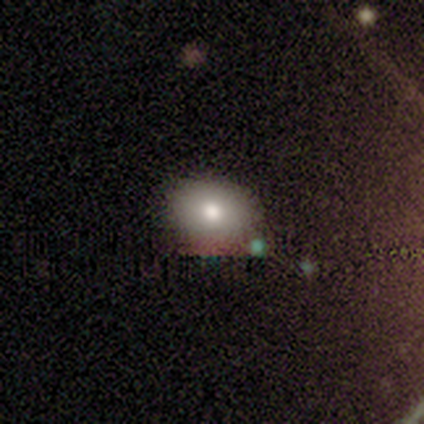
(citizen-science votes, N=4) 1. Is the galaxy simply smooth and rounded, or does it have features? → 75% smooth, 25% star or artifact, 0% featured or disk.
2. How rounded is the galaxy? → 67% in between, 33% round, 0% cigar-shaped.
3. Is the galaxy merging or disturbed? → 100% none, 0% minor disturbance, 0% major disturbance, 0% merger.